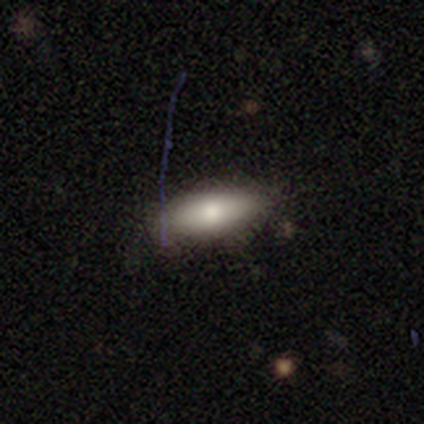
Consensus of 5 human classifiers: Overall: smooth (100%). How rounded: in between (100%). Merging: none (100%).